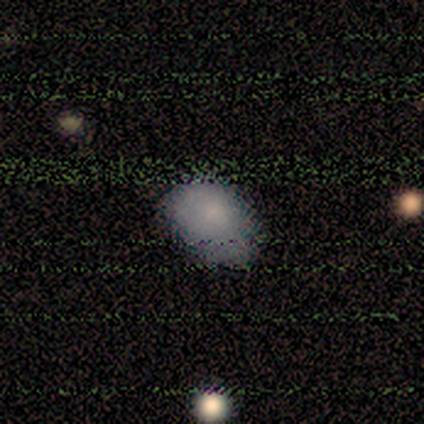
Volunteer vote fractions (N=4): A smooth galaxy with no disk features (75%) that is in between round and cigar-shaped (100%). Merging: none (67%).